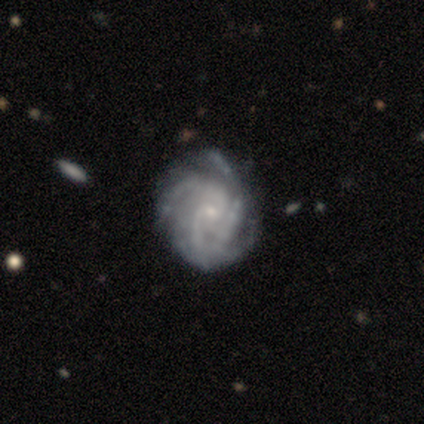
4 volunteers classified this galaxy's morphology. Smooth or featured? 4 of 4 (100%) said featured or disk. Edge-on disk? 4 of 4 (100%) said no. Bar? 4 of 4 (100%) said no. Spiral arms? 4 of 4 (100%) said yes. Spiral winding? 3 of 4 (75%) said tight. Spiral arm count? 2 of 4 (50%) said 3. Bulge size? 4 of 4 (100%) said small. Merging? 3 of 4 (75%) said none.